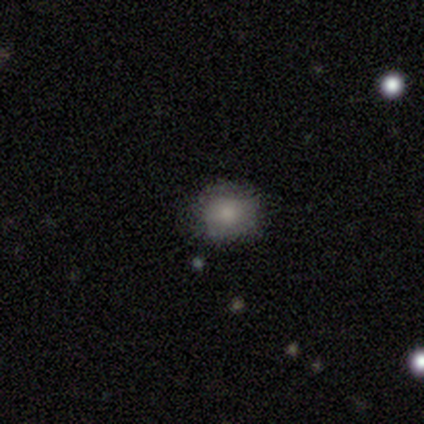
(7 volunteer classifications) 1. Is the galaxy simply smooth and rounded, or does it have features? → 86% smooth, 14% featured or disk, 0% star or artifact.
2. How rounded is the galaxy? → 83% round, 17% in between, 0% cigar-shaped.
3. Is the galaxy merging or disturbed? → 57% none, 29% minor disturbance, 14% merger, 0% major disturbance.